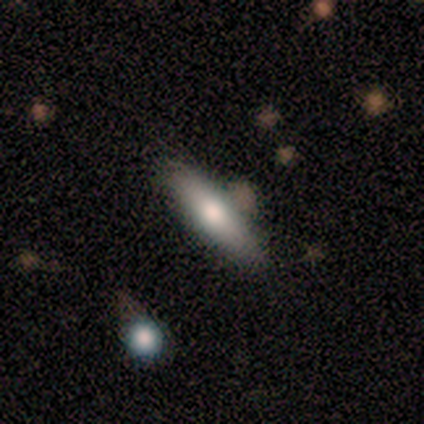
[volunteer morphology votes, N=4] Smooth or featured? smooth (50%, tied with featured or disk)
How rounded? cigar-shaped (100%)
Merging? none (100%)